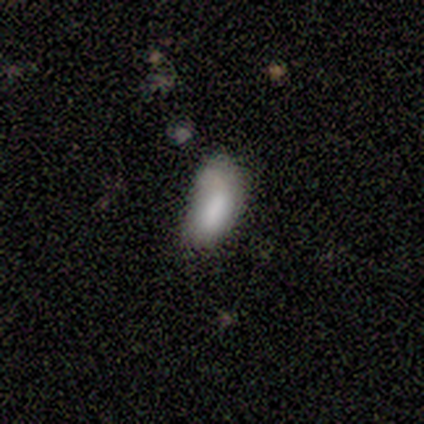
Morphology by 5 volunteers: Smooth or featured? smooth (40%, tied with star or artifact)
How rounded? in between (50%, tied with cigar-shaped)
Merging? none (100%)